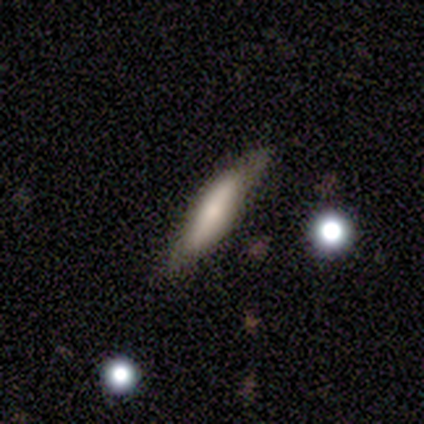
Smooth or featured? 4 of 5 (80%) said smooth. How rounded? 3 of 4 (75%) said cigar-shaped. Merging? 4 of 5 (80%) said none.